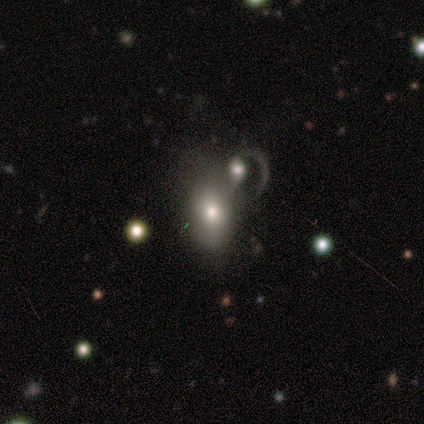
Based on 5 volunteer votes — smooth 60%, featured or disk 20%, star or artifact 20%. Down the decision tree: how rounded — in between (100%); merging — none (50%, tied with merger).